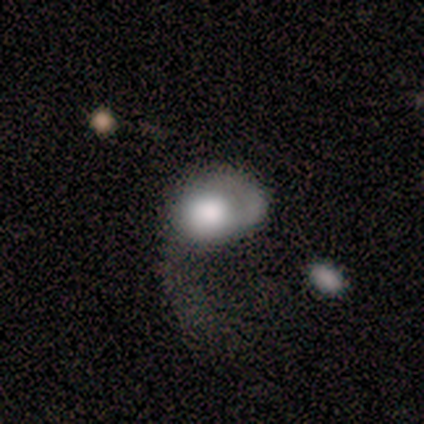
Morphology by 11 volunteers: Smooth or featured? 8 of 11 (73%) said smooth. How rounded? 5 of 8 (62%) said in between. Merging? 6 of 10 (60%) said major disturbance.